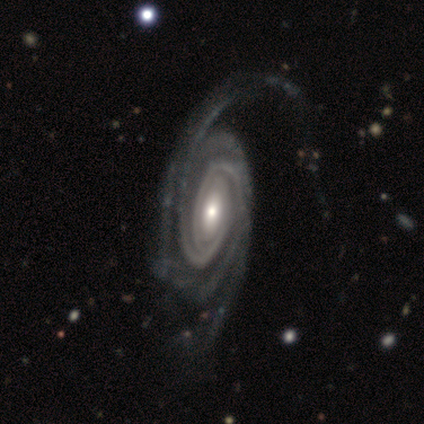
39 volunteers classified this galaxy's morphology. Smooth or featured? featured or disk (100%)
Edge-on disk? no (100%)
Bar? no (56%)
Spiral arms? yes (100%)
Spiral winding? tight (69%)
Spiral arm count? 2 (38%)
Bulge size? moderate (51%)
Merging? none (33%)